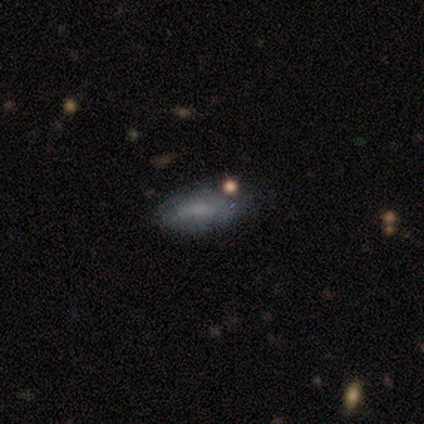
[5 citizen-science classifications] This appears to be a smooth galaxy with no disk features (60%) that is in between round and cigar-shaped (67%). Merging: none (100%).